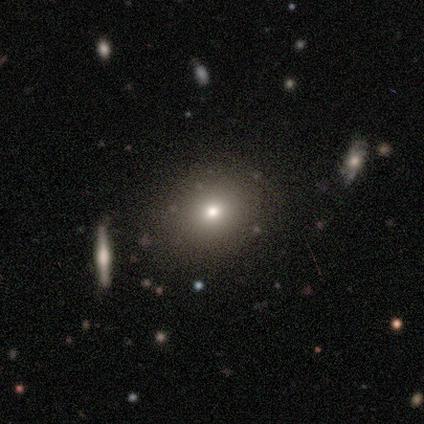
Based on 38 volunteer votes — A smooth galaxy with no disk features (68%) that is round (62%).

Vote fractions:
- Smooth or featured? smooth: 68% / star or artifact: 21% / featured or disk: 11%
- How rounded? round: 62% / in between: 38% / cigar-shaped: 0%
- Merging? none: 90% / minor disturbance: 10% / major disturbance: 0% / merger: 0%